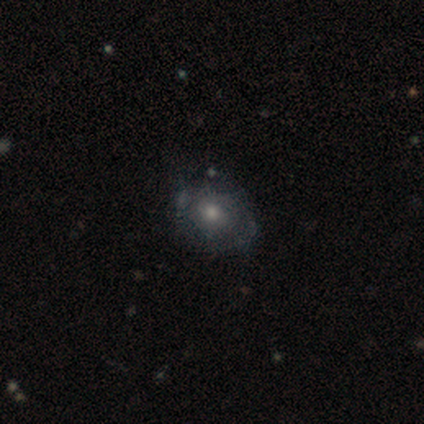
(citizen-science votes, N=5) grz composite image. It shows a featured or disk galaxy (60%) with no bar (100%), 2 (67%) tight (100%) spiral arms (100%) and a large central bulge (33%, tied with moderate and small). Merging: none (60%).